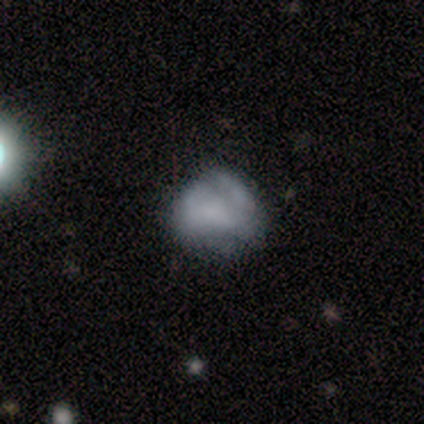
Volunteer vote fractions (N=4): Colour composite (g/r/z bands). It shows a smooth galaxy with no disk features (75%) that is in between round and cigar-shaped (67%). Merging: none (50%).